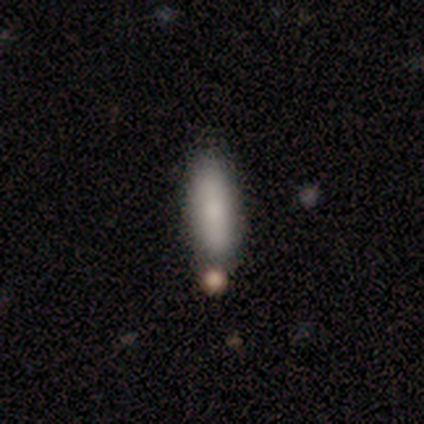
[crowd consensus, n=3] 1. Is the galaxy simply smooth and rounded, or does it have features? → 100% smooth, 0% featured or disk, 0% star or artifact.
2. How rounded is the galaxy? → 67% cigar-shaped, 33% in between, 0% round.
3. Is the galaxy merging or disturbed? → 67% none, 33% merger, 0% minor disturbance, 0% major disturbance.